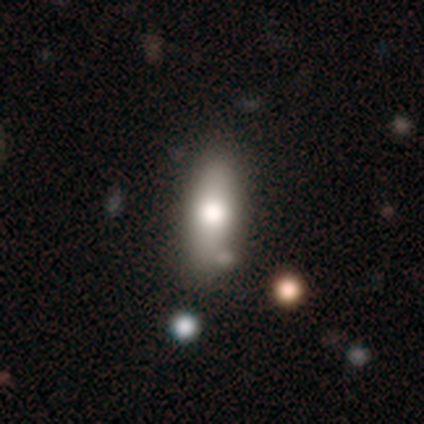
This appears to be a smooth galaxy with no disk features (76%) that is in between round and cigar-shaped (59%). Merging: none (55%).